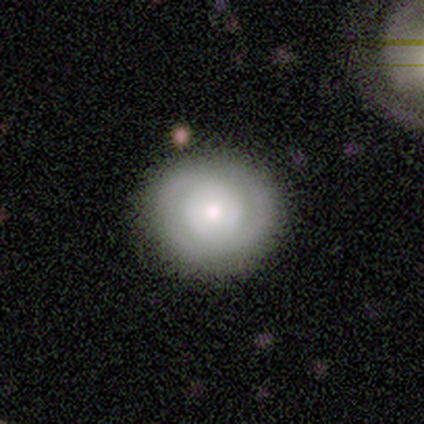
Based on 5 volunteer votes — This is likely a featured or disk galaxy (60%). It is clearly not viewed edge-on (100%). Bar: likely no (67%). Spiral arm pattern: likely yes (67%). Spiral arm count: clearly 2 (100%). Spiral winding: clearly tight (100%). Central bulge: likely moderate (67%). Merging: clearly none (100%).